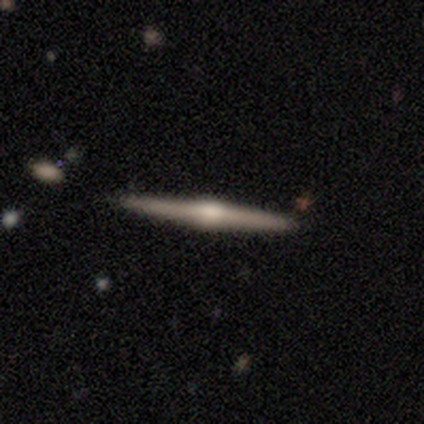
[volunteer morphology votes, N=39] smooth_or_featured: featured or disk (p=0.82) [alt: smooth p=0.18]
disk_edge_on: yes (p=0.94) [alt: no p=0.06]
edge_on_bulge: rounded (p=0.87) [alt: boxy p=0.10]
merging: none (p=0.87) [alt: merger p=0.08]